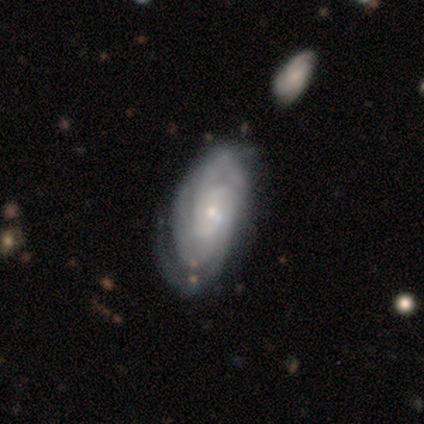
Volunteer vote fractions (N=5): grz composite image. It shows a featured or disk galaxy (80%) with no bar (75%), tight (75%) spiral arms (100%) and a small central bulge (75%). Merging: minor disturbance (40%, tied with major disturbance).